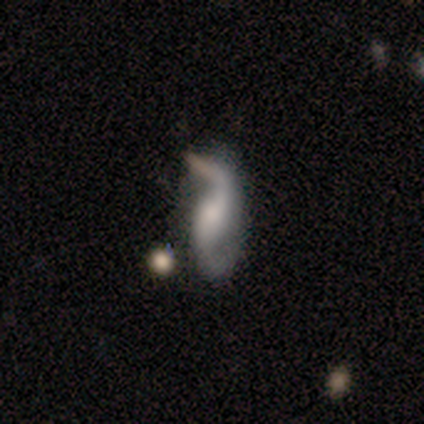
Smooth or featured? featured or disk (87%)
Edge-on disk? no (91%)
Bar? no (39%)
Spiral arms? yes (87%)
Spiral winding? loose (81%)
Spiral arm count? 2 (96%)
Bulge size? moderate (35%)
Merging? none (57%)